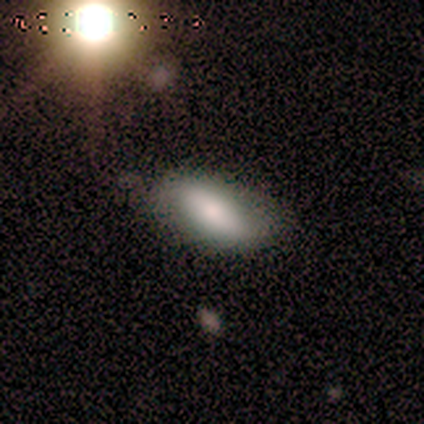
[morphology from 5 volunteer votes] This appears to be a featured or disk galaxy (40%, tied with star or artifact) viewed edge-on (50%, tied with no) with a rounded central bulge (100%). Merging: none (67%).